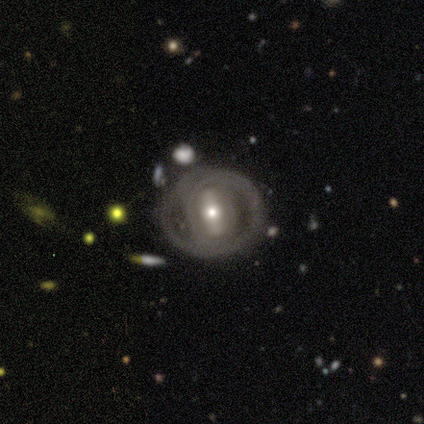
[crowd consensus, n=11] Overall: featured or disk (100%). Edge-on disk: no (100%). Bar: strong (45%; weak 27%). Spiral arms: no (64%; yes 36%). Bulge size: moderate (64%; small 36%). Merging: none (82%).